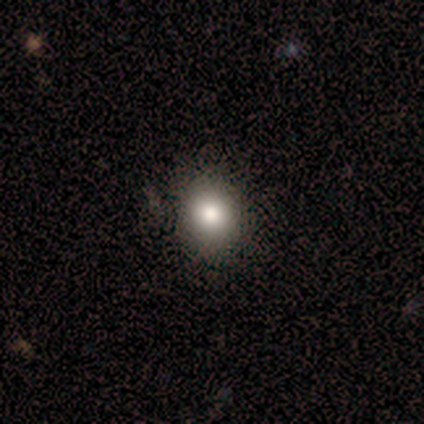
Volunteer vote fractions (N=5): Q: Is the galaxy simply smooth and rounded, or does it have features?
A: smooth — 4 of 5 (80%).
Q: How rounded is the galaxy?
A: round — 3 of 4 (75%).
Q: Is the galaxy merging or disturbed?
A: none — 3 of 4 (75%).